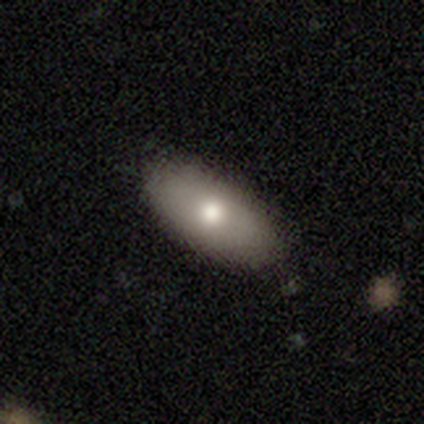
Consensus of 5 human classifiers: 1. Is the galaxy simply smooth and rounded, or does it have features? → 60% smooth, 40% featured or disk, 0% star or artifact.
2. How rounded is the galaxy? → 100% in between, 0% round, 0% cigar-shaped.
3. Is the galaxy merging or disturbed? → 80% none, 20% minor disturbance, 0% major disturbance, 0% merger.